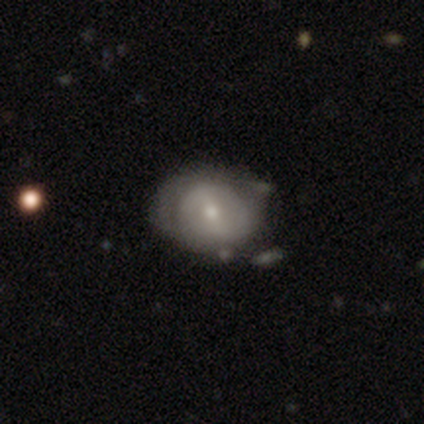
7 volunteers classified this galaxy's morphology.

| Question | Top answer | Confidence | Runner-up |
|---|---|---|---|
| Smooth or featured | featured or disk | 57% | smooth (29%) |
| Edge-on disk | no | 100% | — |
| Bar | no | 100% | — |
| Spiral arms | yes | 75% | no (25%) |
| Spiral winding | tight | 67% | medium (33%) |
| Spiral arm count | can't tell | 67% | 2 (33%) |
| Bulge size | moderate | 50% | tied: small (50%) |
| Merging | none | 33% | tied: minor disturbance (33%) |